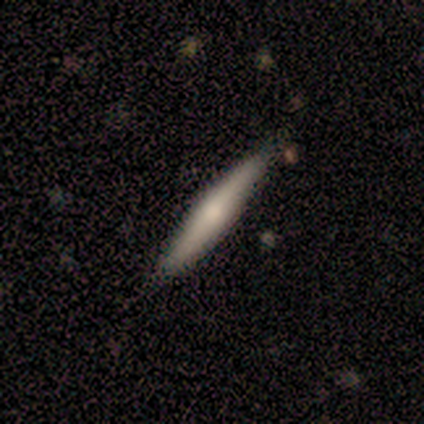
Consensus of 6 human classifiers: This appears to be a featured or disk galaxy (83%) viewed edge-on (100%) with no central bulge (60%). Merging: none (100%).